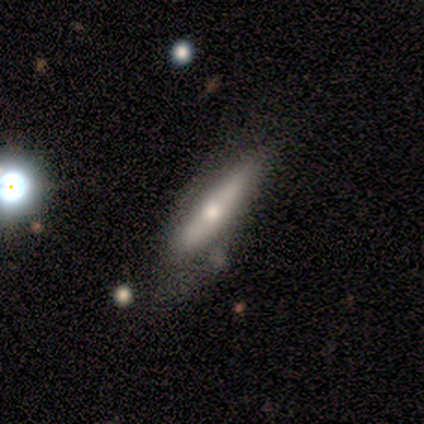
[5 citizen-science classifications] Overall: smooth (80%). How rounded: cigar-shaped (75%). Merging: none (60%; minor disturbance 20%).